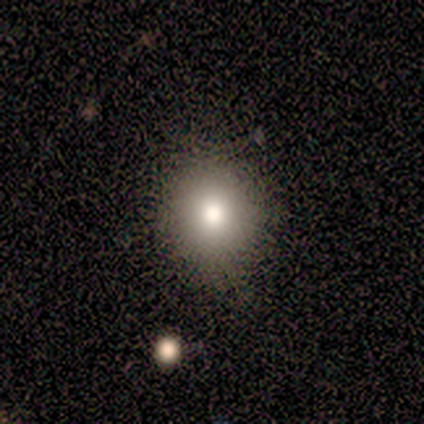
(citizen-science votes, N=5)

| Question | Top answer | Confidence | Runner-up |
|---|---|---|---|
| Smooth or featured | smooth | 60% | featured or disk (20%) |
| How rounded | in between | 67% | round (33%) |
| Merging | none | 100% | — |